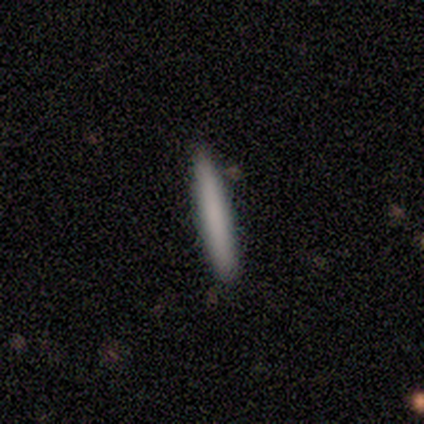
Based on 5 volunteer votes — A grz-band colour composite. It shows a smooth galaxy with no disk features (100%) that is cigar-shaped (100%). Merging: none (100%).